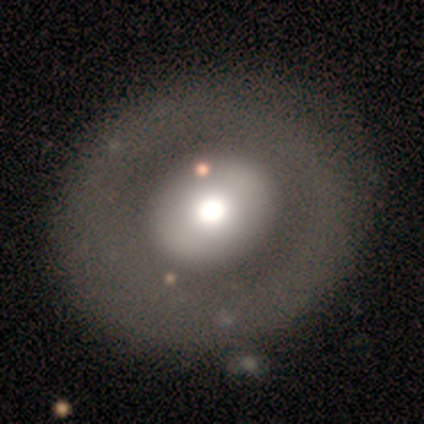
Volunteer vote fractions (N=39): Morphology: type=featured or disk (49%); edge-on=no (100%); bar=no (79%); spiral arms=no (89%); bulge=moderate (42%); merging=none (57%).